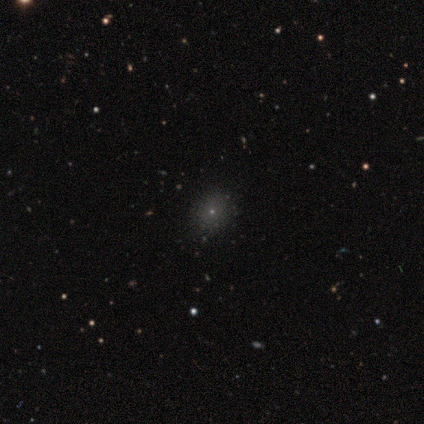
A smooth galaxy with no disk features (60%) that is round (67%).

Vote fractions:
- Smooth or featured? smooth: 60% / star or artifact: 40% / featured or disk: 0%
- How rounded? round: 67% / in between: 33% / cigar-shaped: 0%
- Merging? none: 100% / minor disturbance: 0% / major disturbance: 0% / merger: 0%